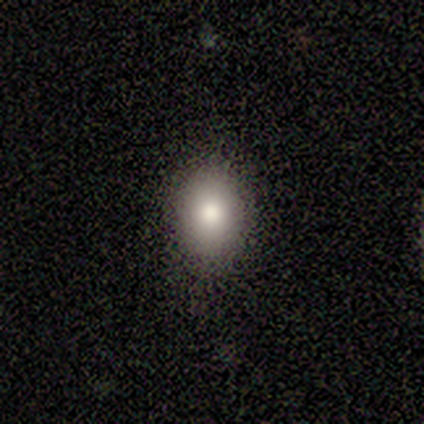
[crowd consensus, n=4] smooth_or_featured: smooth (p=1.00)
how_rounded: round (p=0.50) [tied with: in between p=0.50]
merging: none (p=1.00)